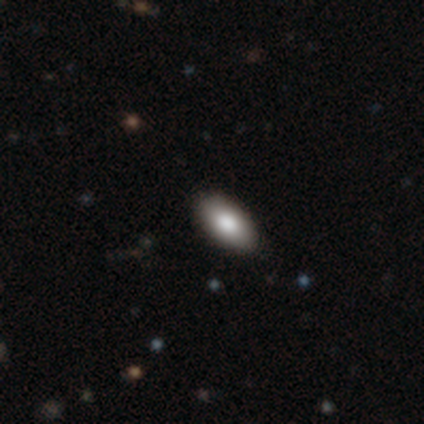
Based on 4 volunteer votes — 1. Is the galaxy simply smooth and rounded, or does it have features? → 100% smooth, 0% featured or disk, 0% star or artifact.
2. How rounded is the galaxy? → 100% in between, 0% round, 0% cigar-shaped.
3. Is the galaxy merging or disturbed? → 100% none, 0% minor disturbance, 0% major disturbance, 0% merger.